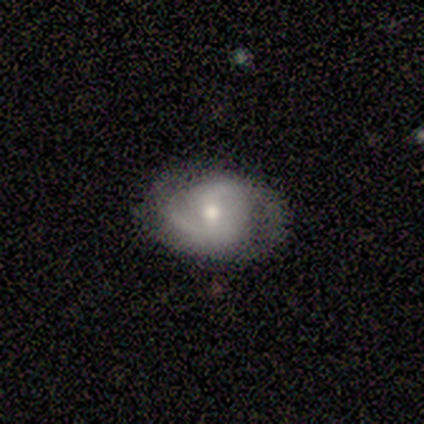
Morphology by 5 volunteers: Q: Smooth or featured?
A: featured or disk (60%); runner-up: smooth (20%)
Q: Edge-on disk?
A: no (100%)
Q: Bar?
A: no (67%); runner-up: weak (33%)
Q: Spiral arms?
A: yes (67%); runner-up: no (33%)
Q: Spiral winding?
A: loose (100%)
Q: Spiral arm count?
A: 2 (100%)
Q: Bulge size?
A: small (67%); runner-up: moderate (33%)
Q: Merging?
A: none (100%)